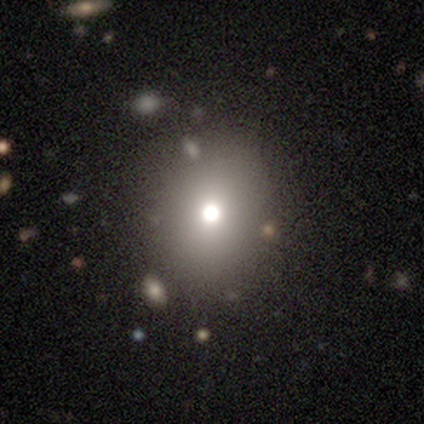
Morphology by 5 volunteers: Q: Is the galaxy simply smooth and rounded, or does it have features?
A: star or artifact — 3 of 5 (60%).